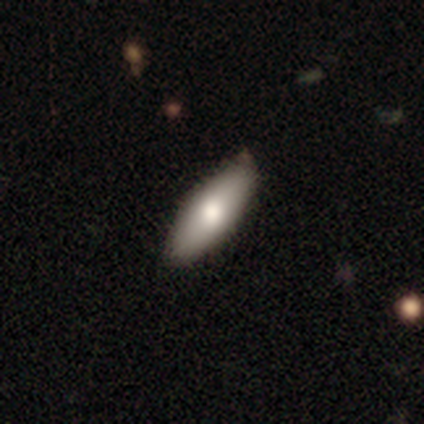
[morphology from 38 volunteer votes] Overall: smooth (74%). How rounded: in between (64%; cigar-shaped 32%). Merging: none (89%).